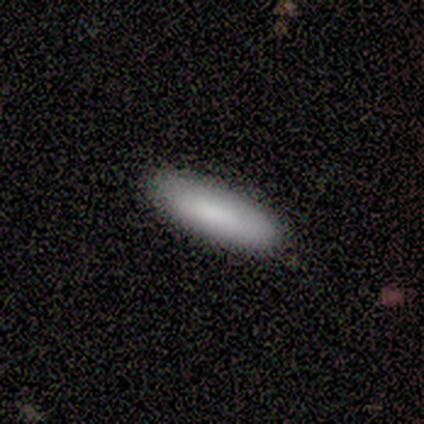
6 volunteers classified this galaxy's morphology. Q: Smooth or featured?
A: smooth (100%)
Q: How rounded?
A: cigar-shaped (67%); runner-up: in between (33%)
Q: Merging?
A: none (100%)